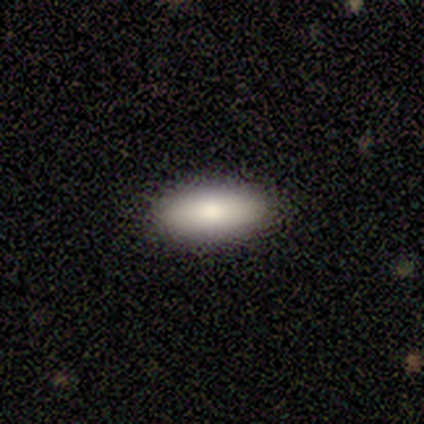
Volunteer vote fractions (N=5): Volunteers were most divided on "how rounded" (2-way tie): in between: 50%, cigar-shaped: 50%, round: 0%. More confident: merging — none (100%); smooth or featured — smooth (80%).